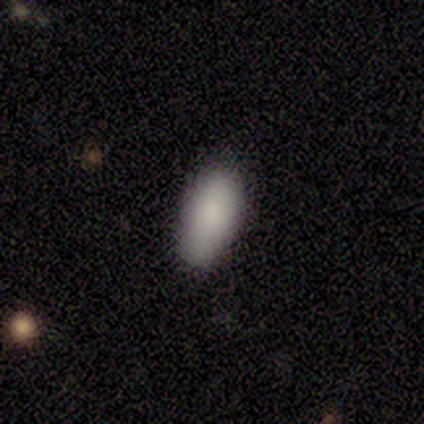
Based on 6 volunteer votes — Morphology: type=smooth (67%); roundness=in between (100%); merging=none (40%, tied with minor disturbance).